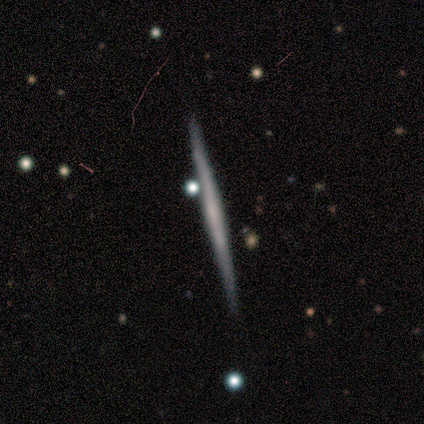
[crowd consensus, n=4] Overall: featured or disk (100%). Edge-on disk: yes (100%). Edge-on bulge: none (100%). Merging: none (100%).